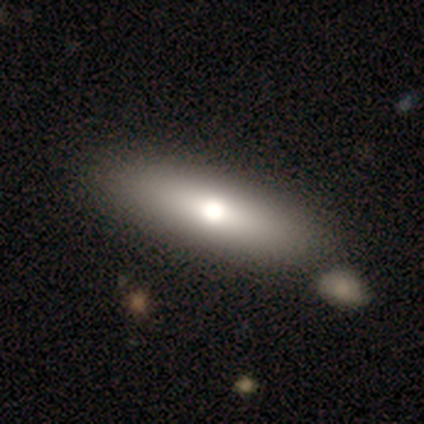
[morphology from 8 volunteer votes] A smooth galaxy with no disk features (75%) that is in between round and cigar-shaped (67%).

Vote fractions:
- Smooth or featured? smooth: 75% / featured or disk: 25% / star or artifact: 0%
- How rounded? in between: 67% / cigar-shaped: 33% / round: 0%
- Merging? none: 88% / minor disturbance: 12% / major disturbance: 0% / merger: 0%